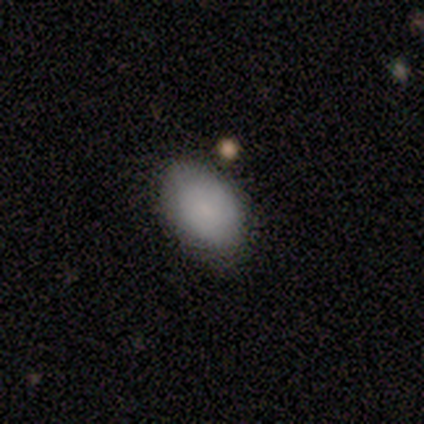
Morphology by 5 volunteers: smooth 100%, featured or disk 0%, star or artifact 0%. Down the decision tree: how rounded — in between (80%); merging — none (60%).